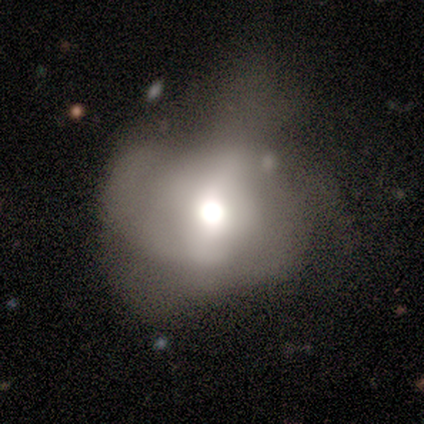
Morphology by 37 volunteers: smooth 57%, featured or disk 32%, star or artifact 11%. Down the decision tree: how rounded — round (62%); merging — major disturbance (58%).